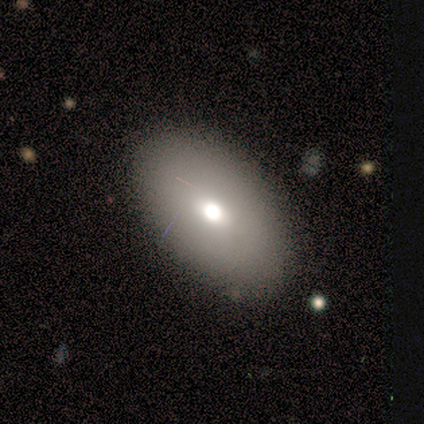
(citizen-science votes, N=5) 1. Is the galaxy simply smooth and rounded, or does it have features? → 100% smooth, 0% featured or disk, 0% star or artifact.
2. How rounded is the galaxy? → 80% in between, 20% round, 0% cigar-shaped.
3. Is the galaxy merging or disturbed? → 100% none, 0% minor disturbance, 0% major disturbance, 0% merger.